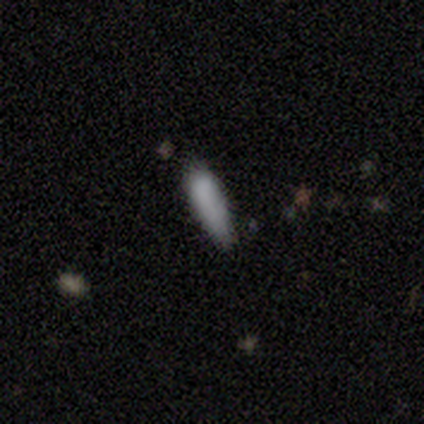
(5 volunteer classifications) This appears to be a smooth galaxy with no disk features (40%, tied with featured or disk) that is in between round and cigar-shaped (100%). Merging: minor disturbance (100%).